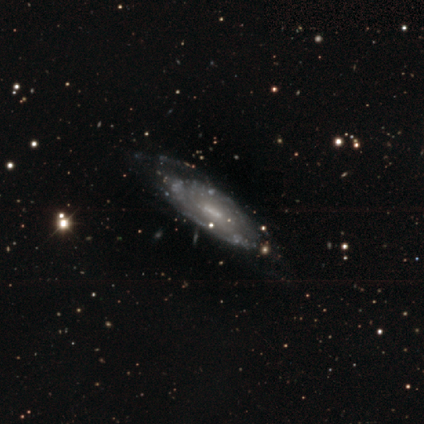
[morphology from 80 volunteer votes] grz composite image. It shows a featured or disk galaxy (91%) with a weak bar (60%), tight (60%) spiral arms (72%) and a small central bulge (41%). Merging: none (35%).